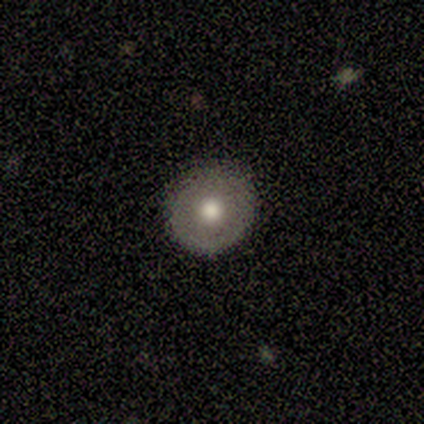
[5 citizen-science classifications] Volunteers were most divided on "smooth or featured": smooth: 60%, featured or disk: 40%, star or artifact: 0%. More confident: how rounded — round (100%); merging — none (100%).